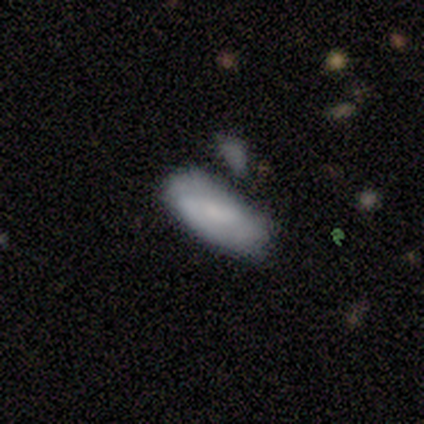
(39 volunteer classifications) A smooth galaxy with no disk features (69%) that is in between round and cigar-shaped (85%). Merging: none (47%).